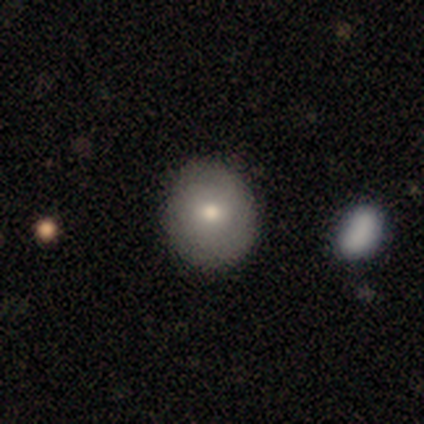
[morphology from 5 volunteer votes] Smooth or featured: smooth — 60% (featured or disk — 40%)
How rounded: round — 100%
Merging: none — 100%